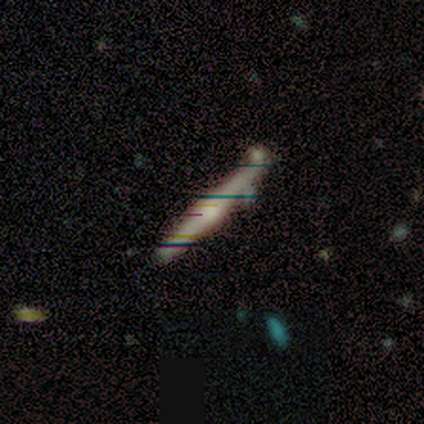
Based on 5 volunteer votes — A featured or disk galaxy (80%) viewed edge-on (75%) with a rounded central bulge (67%).

Vote fractions:
- Smooth or featured? featured or disk: 80% / star or artifact: 20% / smooth: 0%
- Edge-on disk? yes: 75% / no: 25%
- Edge-on bulge? rounded: 67% / none: 33% / boxy: 0%
- Merging? none: 75% / minor disturbance: 25% / major disturbance: 0% / merger: 0%